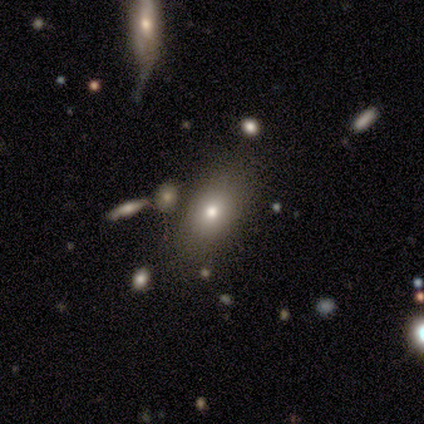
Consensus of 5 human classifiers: Smooth or featured: smooth — 60% (featured or disk — 40%)
How rounded: in between — 100%
Merging: none — 60% (minor disturbance — 40%)